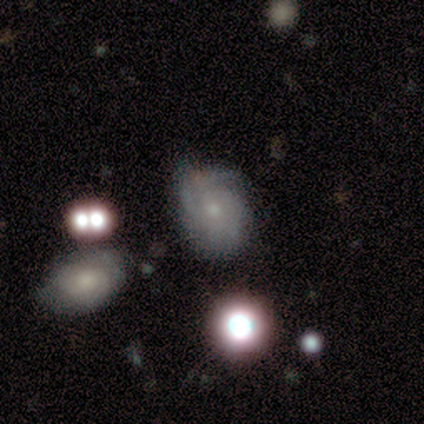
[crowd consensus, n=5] Morphology: type=featured or disk (60%); edge-on=no (100%); bar=weak (67%); spiral arms=yes (100%); winding=medium (67%); arm count=2 (33%, tied with 3 and more than 4); bulge=small (67%); merging=none (50%, tied with merger).